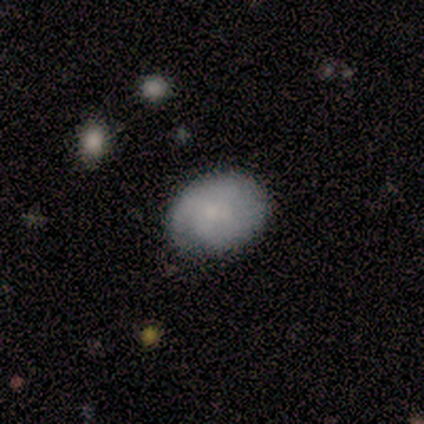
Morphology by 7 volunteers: A smooth galaxy with no disk features (71%) that is in between round and cigar-shaped (100%).

Vote fractions:
- Smooth or featured? smooth: 71% / featured or disk: 14% / star or artifact: 14%
- How rounded? in between: 100% / round: 0% / cigar-shaped: 0%
- Merging? none: 100% / minor disturbance: 0% / major disturbance: 0% / merger: 0%